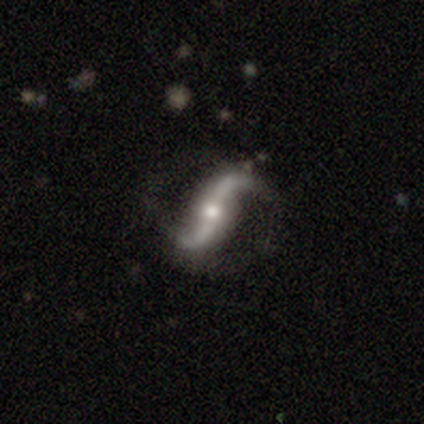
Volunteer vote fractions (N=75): Smooth or featured?
  - featured or disk: 95% *
  - star or artifact: 4%
  - smooth: 1%
Edge-on disk?
  - no: 94% *
  - yes: 6%
Bar?
  - strong: 57% *
  - no: 30%
  - weak: 13%
Spiral arms?
  - yes: 99% *
  - no: 1%
Spiral winding?
  - loose: 86% *
  - medium: 12%
  - tight: 2%
Spiral arm count?
  - 2: 97% *
  - 1: 2%
  - 3: 2%
  - 4: 0%
  - more than 4: 0%
  - can't tell: 0%
Bulge size?
  - moderate: 72% *
  - small: 25%
  - large: 3%
  - dominant: 0%
  - none: 0%
Merging?
  - none: 51% *
  - major disturbance: 4%
  - minor disturbance: 3%
  - merger: 3%